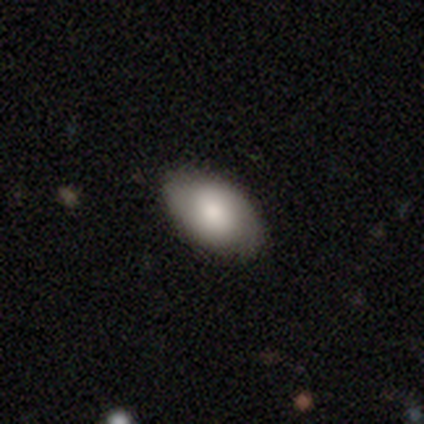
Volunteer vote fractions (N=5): Smooth or featured: smooth — 100%
How rounded: in between — 100%
Merging: none — 100%